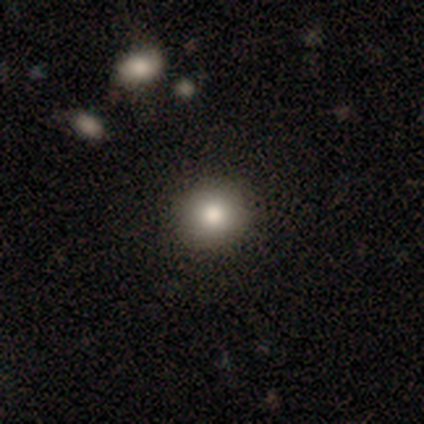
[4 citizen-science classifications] Smooth or featured? smooth (100%)
How rounded? round (100%)
Merging? none (100%)